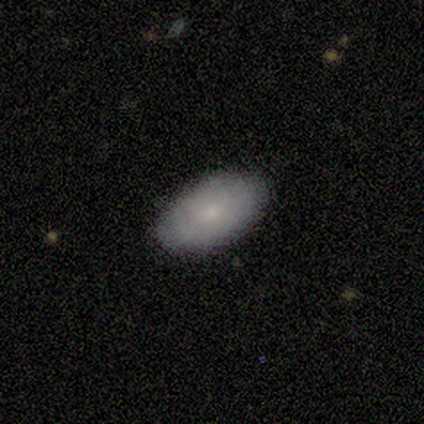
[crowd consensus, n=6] Overall: smooth (67%). How rounded: in between (75%). Merging: none (80%).